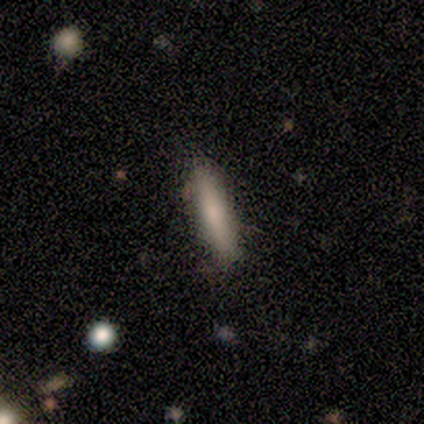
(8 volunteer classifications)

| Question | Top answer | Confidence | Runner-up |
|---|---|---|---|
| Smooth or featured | smooth | 100% | — |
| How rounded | cigar-shaped | 88% | round (12%) |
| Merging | none | 100% | — |